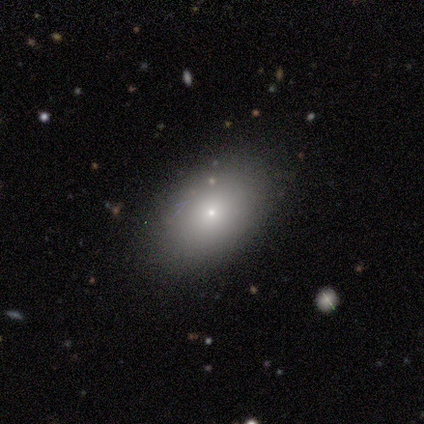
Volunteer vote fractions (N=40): Overall: smooth (68%). How rounded: in between (85%). Merging: none (86%).